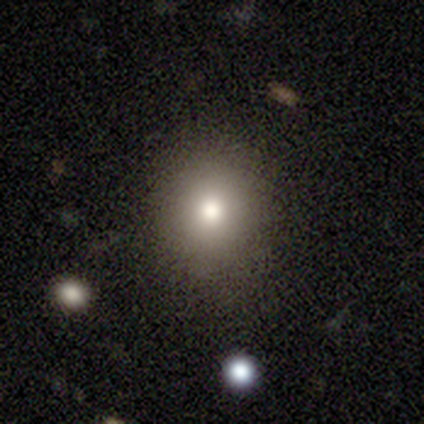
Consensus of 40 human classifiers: A smooth galaxy with no disk features (82%) that is round (76%).

Vote fractions:
- Smooth or featured? smooth: 82% / star or artifact: 10% / featured or disk: 8%
- How rounded? round: 76% / in between: 24% / cigar-shaped: 0%
- Merging? none: 83% / minor disturbance: 8% / major disturbance: 6% / merger: 3%